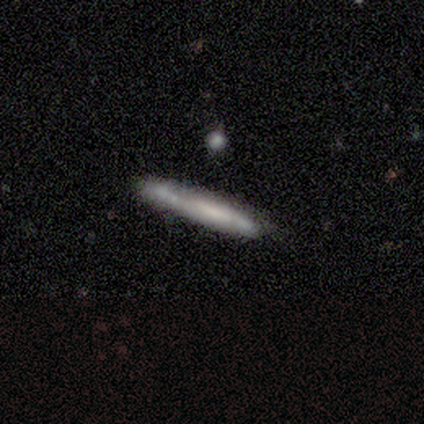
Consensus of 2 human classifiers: Volunteers were most divided on "smooth or featured" (2-way tie): smooth: 50%, star or artifact: 50%, featured or disk: 0%. More confident: how rounded — cigar-shaped (100%); merging — none (100%).